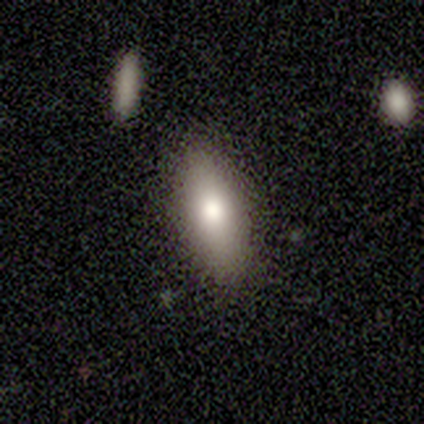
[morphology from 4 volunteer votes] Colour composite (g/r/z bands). It shows a smooth galaxy with no disk features (50%) that is in between round and cigar-shaped (100%). Merging: none (67%).